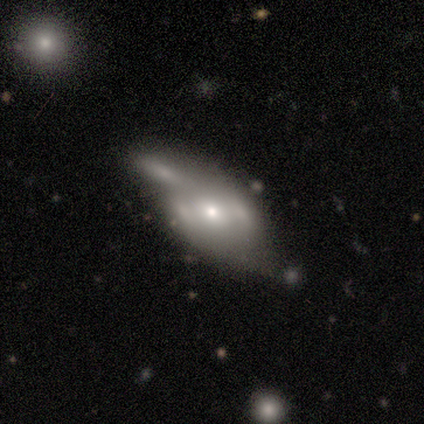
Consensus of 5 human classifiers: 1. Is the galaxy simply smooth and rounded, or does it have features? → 80% smooth, 20% featured or disk, 0% star or artifact.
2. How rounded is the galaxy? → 100% in between, 0% round, 0% cigar-shaped.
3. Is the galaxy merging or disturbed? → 60% minor disturbance, 40% none, 0% major disturbance, 0% merger.